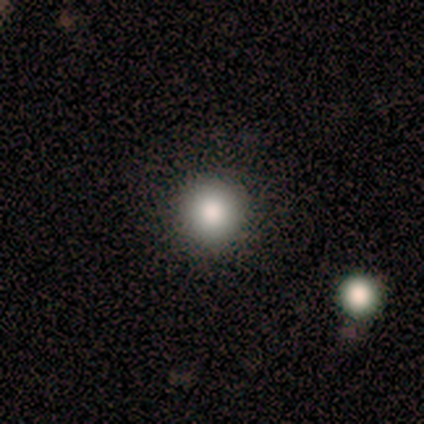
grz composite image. It shows a smooth galaxy with no disk features (70%) that is round (100%). Merging: none (100%).